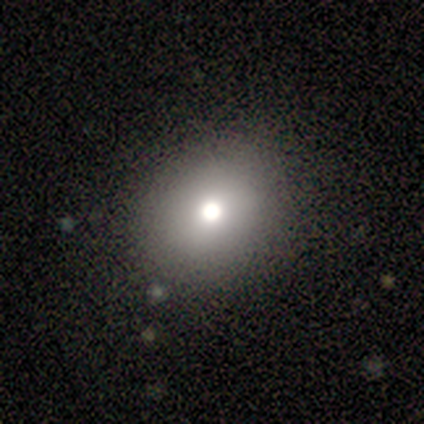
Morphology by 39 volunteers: type=smooth (79%); roundness=round (68%); merging=none (68%).